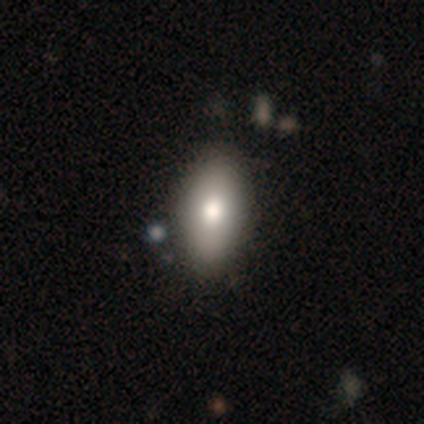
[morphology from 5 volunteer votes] Smooth or featured?
  - featured or disk: 60% *
  - smooth: 40%
  - star or artifact: 0%
Edge-on disk?
  - yes: 67% *
  - no: 33%
Edge-on bulge?
  - boxy: 50% * (tied)
  - rounded: 50% * (tied)
  - none: 0%
Merging?
  - none: 60% *
  - minor disturbance: 20%
  - merger: 20%
  - major disturbance: 0%